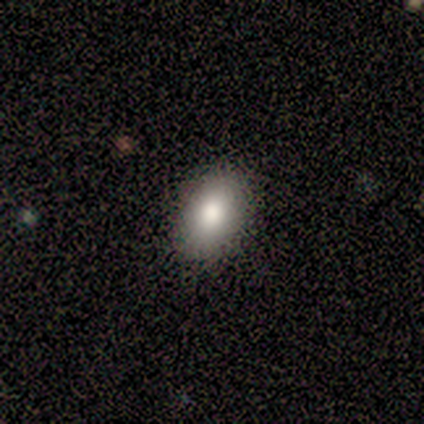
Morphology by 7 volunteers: smooth 86%, star or artifact 14%, featured or disk 0%. Down the decision tree: how rounded — in between (83%); merging — none (83%).